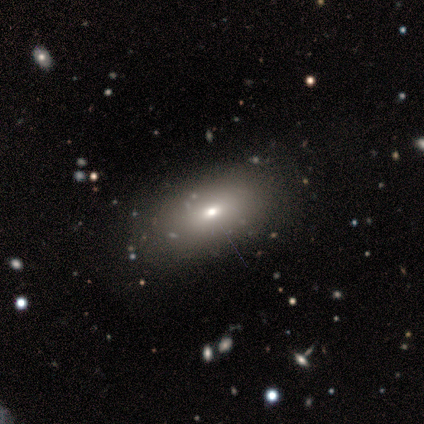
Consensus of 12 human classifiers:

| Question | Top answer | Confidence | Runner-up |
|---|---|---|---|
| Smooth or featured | smooth | 83% | featured or disk (17%) |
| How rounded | in between | 100% | — |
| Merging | none | 75% | minor disturbance (17%) |